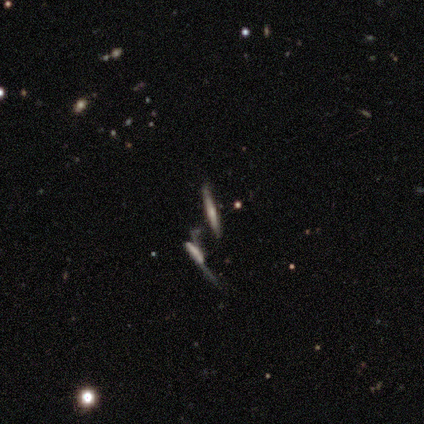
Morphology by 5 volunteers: A featured or disk galaxy (80%) viewed edge-on (100%) with a rounded central bulge (75%). Merging: major disturbance (40%, tied with merger).